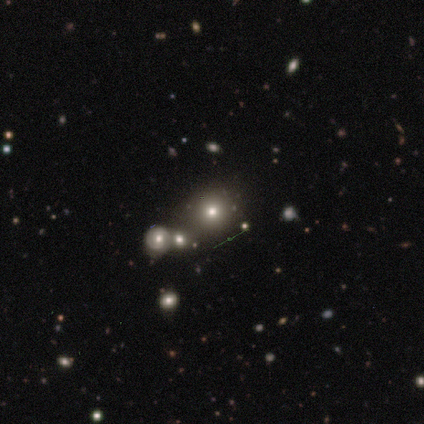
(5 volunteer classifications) Smooth or featured: smooth — 40% (tied with star or artifact — 40%)
How rounded: round — 100%
Merging: none — 67% (minor disturbance — 33%)